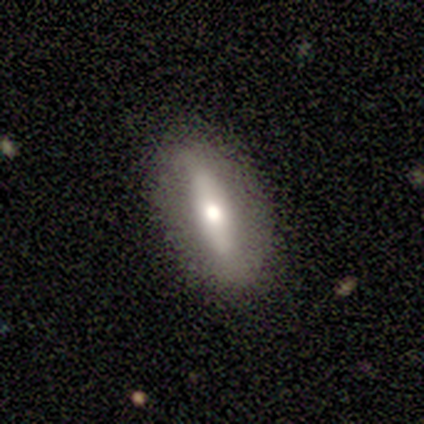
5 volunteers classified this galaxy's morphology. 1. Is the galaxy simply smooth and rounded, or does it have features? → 80% featured or disk, 20% smooth, 0% star or artifact.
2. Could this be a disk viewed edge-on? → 50% yes (tied), 50% no (tied).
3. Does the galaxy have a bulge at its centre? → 100% rounded, 0% boxy, 0% none.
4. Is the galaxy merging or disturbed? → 100% none, 0% minor disturbance, 0% major disturbance, 0% merger.